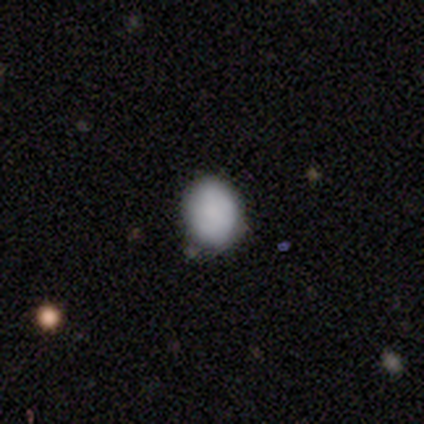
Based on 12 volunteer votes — Smooth or featured? 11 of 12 (92%) said smooth. How rounded? 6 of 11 (55%) said in between. Merging? 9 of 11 (82%) said none.